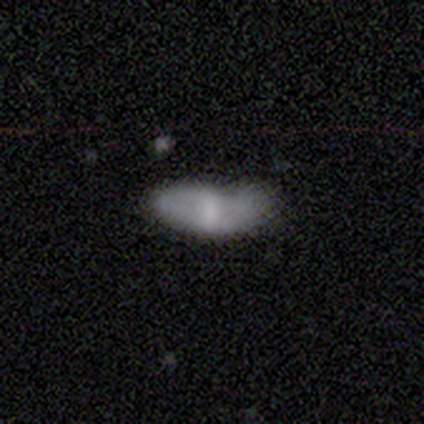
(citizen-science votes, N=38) This appears to be a smooth galaxy with no disk features (66%) that is in between round and cigar-shaped (80%). Merging: minor disturbance (50%).